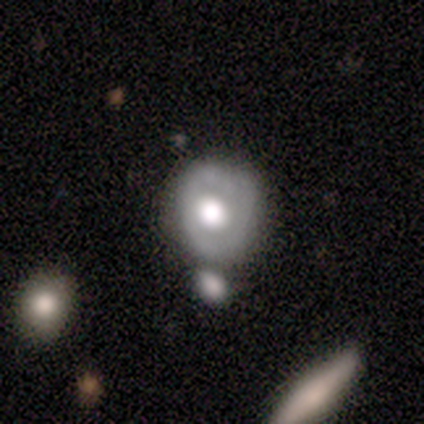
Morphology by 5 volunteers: Smooth or featured? 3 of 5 (60%) said featured or disk. Edge-on disk? 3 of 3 (100%) said no. Bar? 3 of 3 (100%) said no. Spiral arms? 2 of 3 (67%) said no. Bulge size? 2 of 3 (67%) said large. Merging? 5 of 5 (100%) said none.